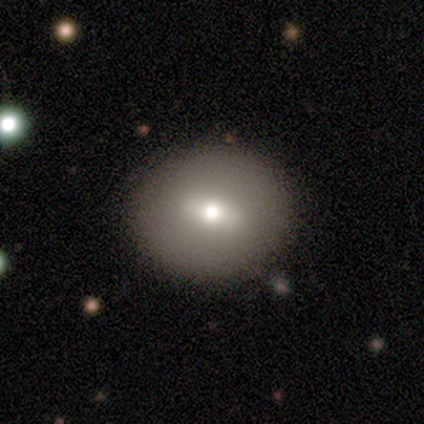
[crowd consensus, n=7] This appears to be a smooth galaxy with no disk features (57%) that is round (75%). Merging: none (86%).